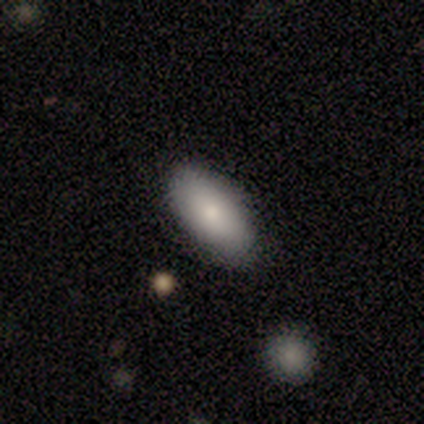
Smooth or featured? smooth (80%)
How rounded? in between (100%)
Merging? none (80%)